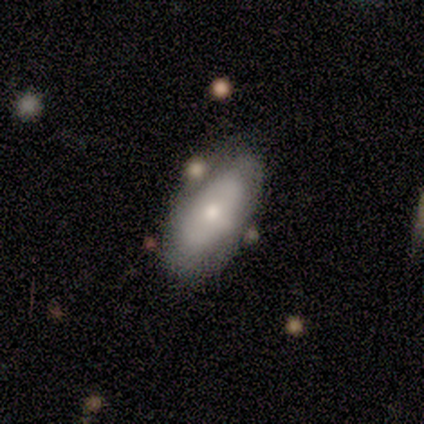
smooth_or_featured: smooth (p=0.50) [tied with: featured or disk p=0.50]
how_rounded: in between (p=1.00)
merging: none (p=0.50) [tied with: merger p=0.50]